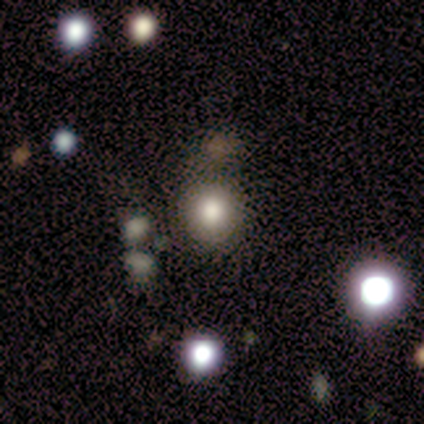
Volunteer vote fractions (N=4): smooth_or_featured: star or artifact (p=0.50) [alt: smooth p=0.25]